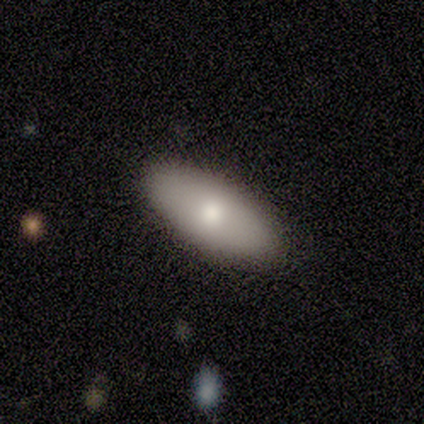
Overall: featured or disk (60%; smooth 40%). Edge-on disk: yes (100%). Edge-on bulge: rounded (100%). Merging: none (100%).